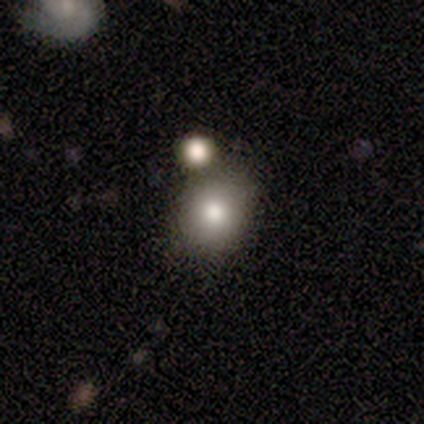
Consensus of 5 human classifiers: smooth_or_featured: smooth (p=0.60) [alt: featured or disk p=0.20]
how_rounded: round (p=0.67) [alt: in between p=0.33]
merging: merger (p=0.50) [alt: none p=0.25]